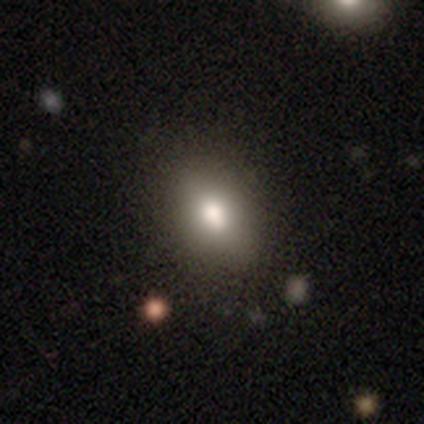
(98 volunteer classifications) Overall: smooth (79%). How rounded: in between (78%). Merging: none (81%).